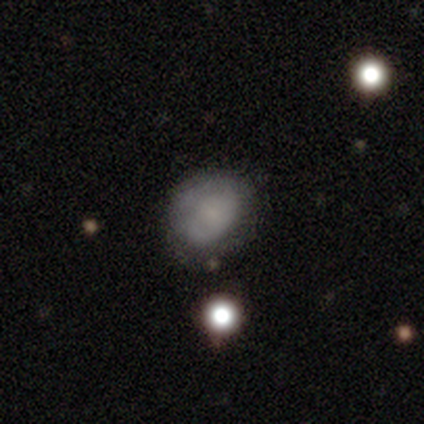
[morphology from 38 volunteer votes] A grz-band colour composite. It shows a smooth galaxy with no disk features (55%) that is round (52%). Merging: none (65%).